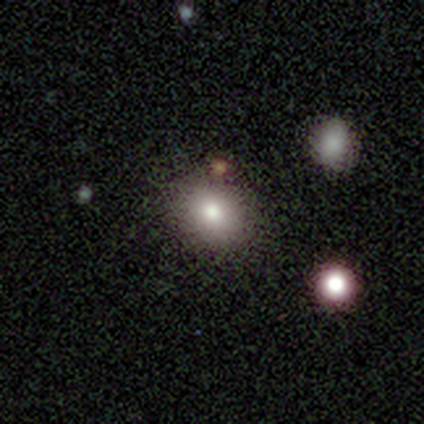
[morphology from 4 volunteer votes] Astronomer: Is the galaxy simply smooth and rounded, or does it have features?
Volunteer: smooth — 75%.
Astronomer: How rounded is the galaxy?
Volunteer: round — 67%.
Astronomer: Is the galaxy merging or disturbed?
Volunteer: none — 67%.